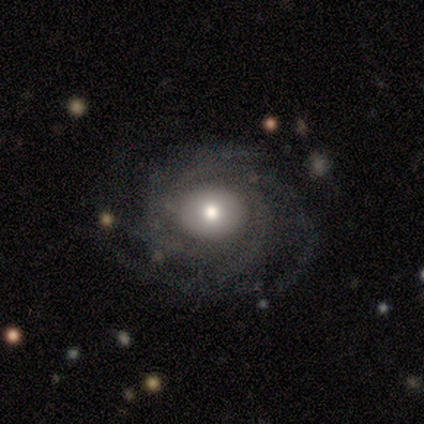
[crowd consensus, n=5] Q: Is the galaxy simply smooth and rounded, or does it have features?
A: featured or disk — 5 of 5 (100%).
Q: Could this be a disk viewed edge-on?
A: no — 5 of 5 (100%).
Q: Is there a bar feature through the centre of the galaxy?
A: no — 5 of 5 (100%).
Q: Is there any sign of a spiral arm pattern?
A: yes — 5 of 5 (100%).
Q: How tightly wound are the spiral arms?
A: tight — 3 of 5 (60%).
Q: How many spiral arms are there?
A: more than 4 — 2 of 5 (40%).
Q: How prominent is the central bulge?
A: large — 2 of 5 (40%, tied with moderate).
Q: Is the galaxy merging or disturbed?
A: none — 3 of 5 (60%).